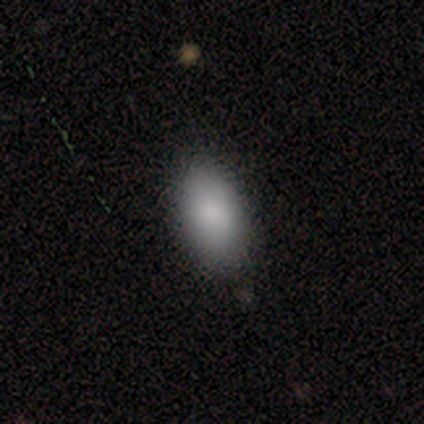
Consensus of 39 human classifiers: Morphology: type=smooth (92%); roundness=in between (97%); merging=none (51%).